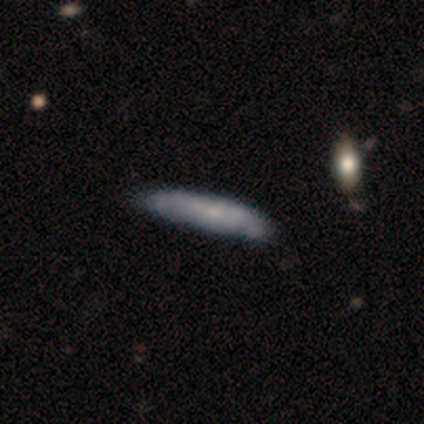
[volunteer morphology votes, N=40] Smooth or featured?
  - featured or disk: 48% *
  - smooth: 42%
  - star or artifact: 10%
Edge-on disk?
  - yes: 68% *
  - no: 32%
Edge-on bulge?
  - none: 54% *
  - rounded: 46%
  - boxy: 0%
Merging?
  - none: 69% *
  - minor disturbance: 28%
  - merger: 3%
  - major disturbance: 0%